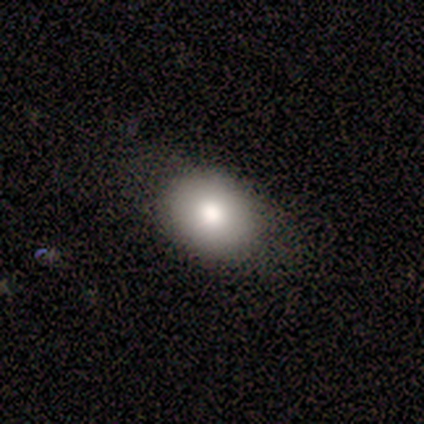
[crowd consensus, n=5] smooth-or-featured: smooth: 100% | featured or disk: 0% | star or artifact: 0%
  how-rounded: round: 60% | in between: 40% | cigar-shaped: 0%
  merging: none: 100% | minor disturbance: 0% | major disturbance: 0% | merger: 0%